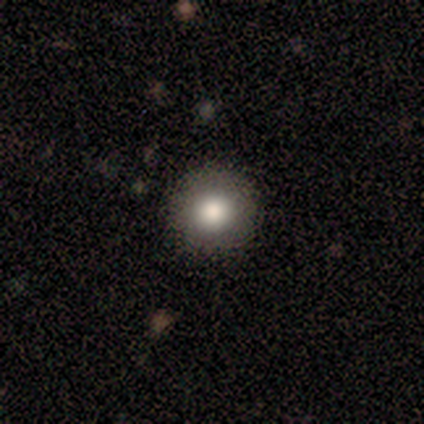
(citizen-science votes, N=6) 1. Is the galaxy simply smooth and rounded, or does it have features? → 100% smooth, 0% featured or disk, 0% star or artifact.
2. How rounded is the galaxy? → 100% round, 0% in between, 0% cigar-shaped.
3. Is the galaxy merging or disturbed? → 100% none, 0% minor disturbance, 0% major disturbance, 0% merger.